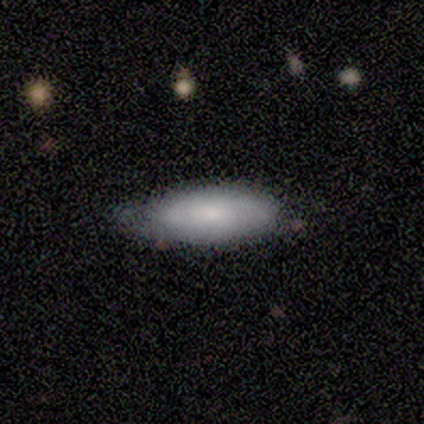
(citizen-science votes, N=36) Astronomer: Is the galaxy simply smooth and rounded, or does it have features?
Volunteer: smooth — 72%.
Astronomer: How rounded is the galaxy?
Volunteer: in between — 69%.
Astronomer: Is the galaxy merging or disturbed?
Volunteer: none — 56% (runner-up: minor disturbance, 39%).